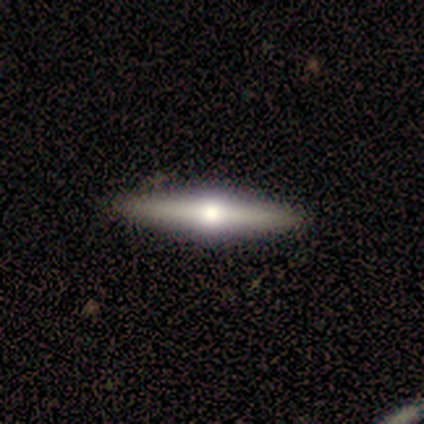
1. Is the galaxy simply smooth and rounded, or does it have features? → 79% featured or disk, 21% smooth, 0% star or artifact.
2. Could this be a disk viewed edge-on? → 100% yes, 0% no.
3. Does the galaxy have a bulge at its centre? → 94% rounded, 3% boxy, 3% none.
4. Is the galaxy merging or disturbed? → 67% none, 5% minor disturbance, 0% major disturbance, 0% merger.